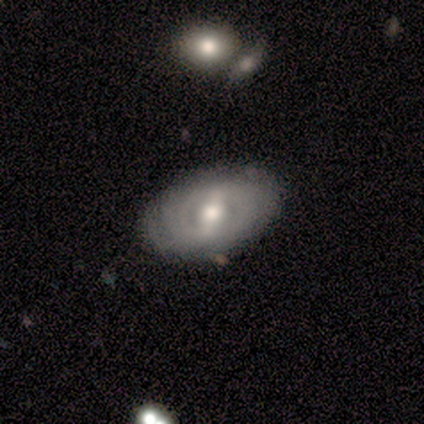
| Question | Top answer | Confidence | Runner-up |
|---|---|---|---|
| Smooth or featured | featured or disk | 80% | smooth (20%) |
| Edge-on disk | no | 100% | — |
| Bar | strong | 50% | tied: weak (50%) |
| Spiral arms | yes | 100% | — |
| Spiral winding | medium | 50% | tight (25%) |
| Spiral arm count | can't tell | 50% | 2 (25%) |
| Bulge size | moderate | 75% | large (25%) |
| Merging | none | 100% | — |